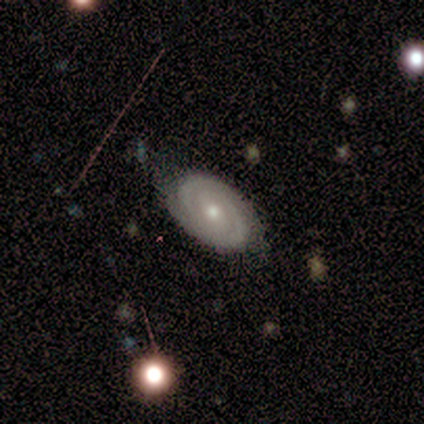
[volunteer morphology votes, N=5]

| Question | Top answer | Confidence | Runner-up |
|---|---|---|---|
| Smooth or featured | featured or disk | 60% | smooth (20%) |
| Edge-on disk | no | 100% | — |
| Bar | no | 67% | weak (33%) |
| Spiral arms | yes | 100% | — |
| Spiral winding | tight | 67% | medium (33%) |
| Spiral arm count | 2 | 100% | — |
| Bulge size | moderate | 67% | small (33%) |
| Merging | none | 50% | tied: minor disturbance (50%) |